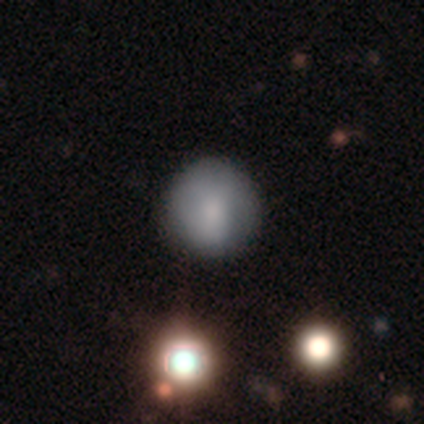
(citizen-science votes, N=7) Smooth or featured? 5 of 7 (71%) said smooth. How rounded? 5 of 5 (100%) said round. Merging? 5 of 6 (83%) said none.